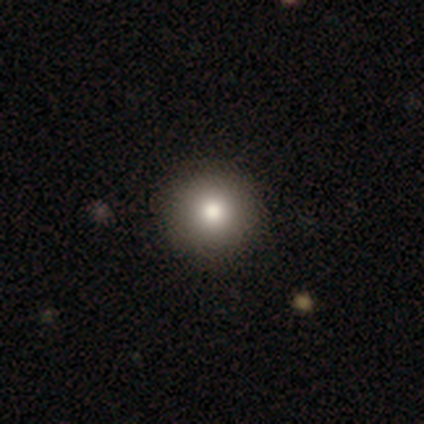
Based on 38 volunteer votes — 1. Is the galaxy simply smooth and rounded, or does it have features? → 82% smooth, 11% star or artifact, 8% featured or disk.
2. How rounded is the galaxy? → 97% round, 3% cigar-shaped, 0% in between.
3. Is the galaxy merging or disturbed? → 94% none, 6% minor disturbance, 0% major disturbance, 0% merger.